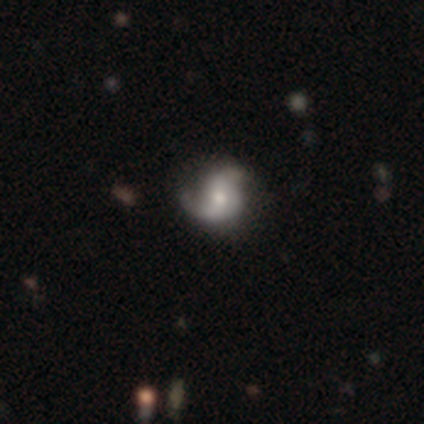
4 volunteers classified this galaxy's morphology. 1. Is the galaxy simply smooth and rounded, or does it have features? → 50% featured or disk, 25% smooth, 25% star or artifact.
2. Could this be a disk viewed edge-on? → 100% no, 0% yes.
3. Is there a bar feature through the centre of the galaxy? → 100% no, 0% strong, 0% weak.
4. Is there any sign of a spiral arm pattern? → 100% yes, 0% no.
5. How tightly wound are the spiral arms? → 100% medium, 0% tight, 0% loose.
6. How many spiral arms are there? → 50% 2 (tied), 50% can't tell (tied), 0% 1, 0% 3, 0% 4, 0% more than 4.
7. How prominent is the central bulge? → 50% moderate (tied), 50% small (tied), 0% dominant, 0% large, 0% none.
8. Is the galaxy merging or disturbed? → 67% none, 33% major disturbance, 0% minor disturbance, 0% merger.